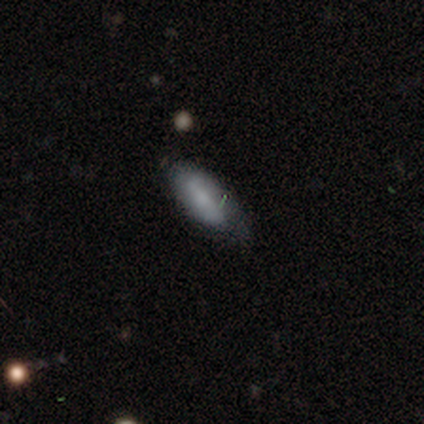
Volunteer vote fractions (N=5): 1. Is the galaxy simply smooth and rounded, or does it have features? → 100% smooth, 0% featured or disk, 0% star or artifact.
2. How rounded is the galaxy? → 100% in between, 0% round, 0% cigar-shaped.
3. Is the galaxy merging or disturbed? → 80% none, 20% minor disturbance, 0% major disturbance, 0% merger.